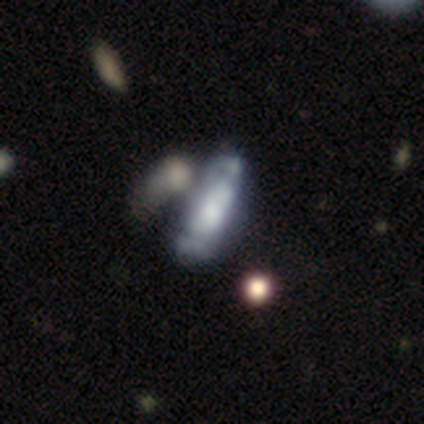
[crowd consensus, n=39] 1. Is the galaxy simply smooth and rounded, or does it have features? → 56% featured or disk, 41% smooth, 3% star or artifact.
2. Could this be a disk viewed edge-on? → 82% no, 18% yes.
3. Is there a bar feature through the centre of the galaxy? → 72% no, 17% weak, 11% strong.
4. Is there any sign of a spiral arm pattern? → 61% yes, 39% no.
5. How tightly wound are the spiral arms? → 64% medium, 18% tight, 18% loose.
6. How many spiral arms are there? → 73% can't tell, 27% 2, 0% 1, 0% 3, 0% 4, 0% more than 4.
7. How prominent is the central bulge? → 50% moderate, 22% large, 17% small, 6% dominant, 6% none.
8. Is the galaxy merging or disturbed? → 34% merger, 18% none, 18% major disturbance, 8% minor disturbance.